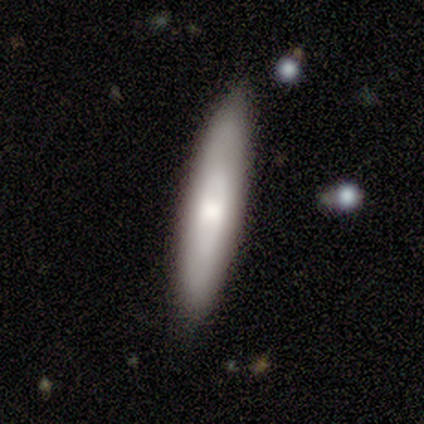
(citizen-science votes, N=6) Smooth or featured? smooth (83%)
How rounded? cigar-shaped (100%)
Merging? none (83%)